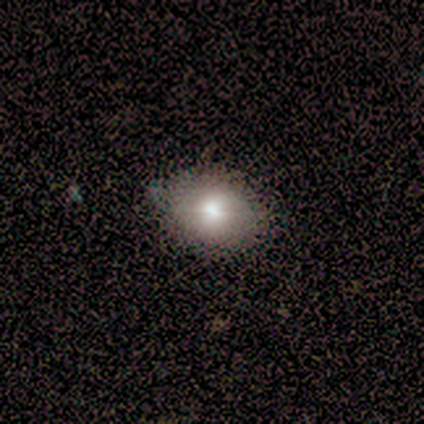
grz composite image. It shows a smooth galaxy with no disk features (92%) that is in between round and cigar-shaped (59%). Merging: none (57%).